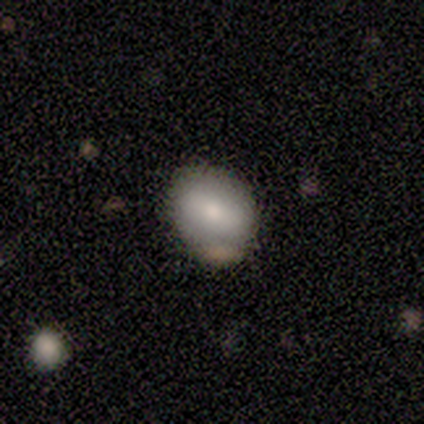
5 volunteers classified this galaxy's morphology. Smooth or featured: smooth — 80% (featured or disk — 20%)
How rounded: in between — 75% (round — 25%)
Merging: none — 80% (minor disturbance — 20%)